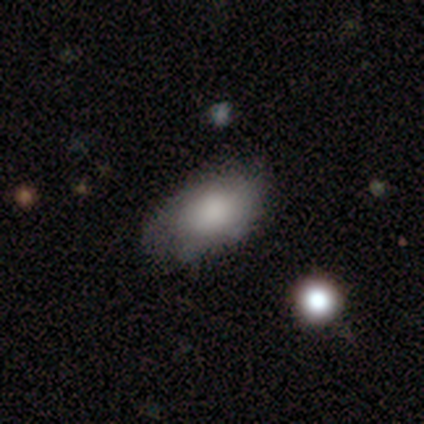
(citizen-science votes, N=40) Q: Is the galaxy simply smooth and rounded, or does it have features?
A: smooth — 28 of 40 (70%).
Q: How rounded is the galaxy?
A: in between — 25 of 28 (89%).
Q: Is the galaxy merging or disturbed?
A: none — 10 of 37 (27%).